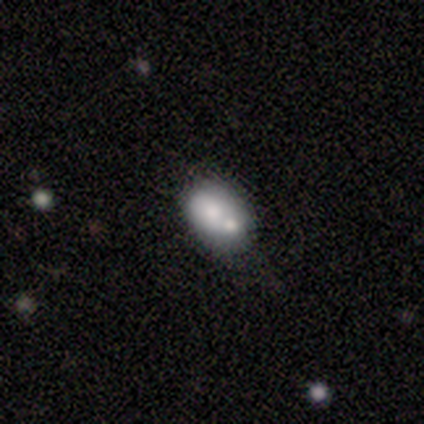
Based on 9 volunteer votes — This appears to be a smooth galaxy with no disk features (78%) that is in between round and cigar-shaped (86%). Merging: merger (75%).